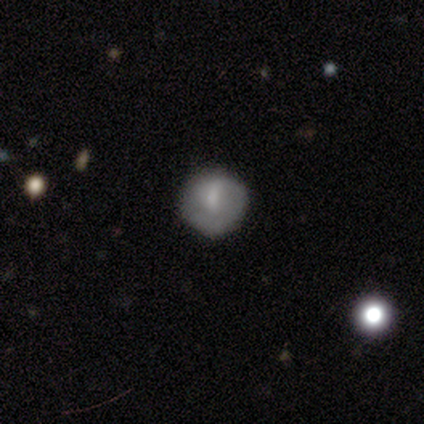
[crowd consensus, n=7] This appears to be a smooth galaxy with no disk features (86%) that is round (100%). Merging: none (100%).